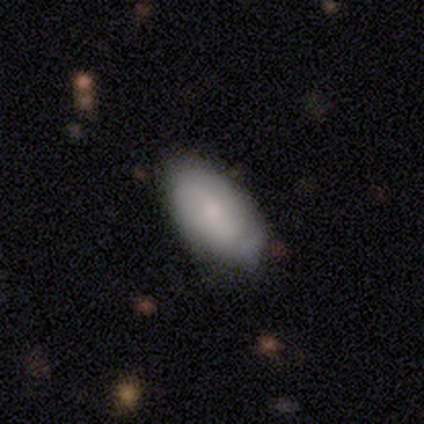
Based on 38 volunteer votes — Overall: smooth (66%; featured or disk 34%). How rounded: in between (96%). Merging: none (68%).